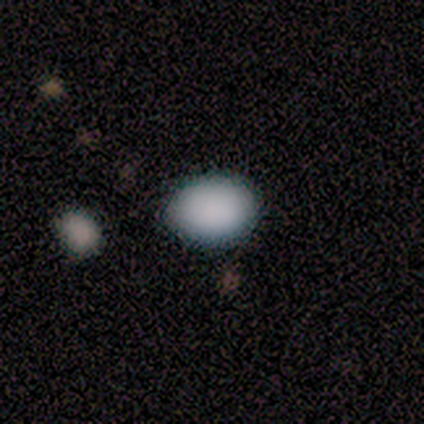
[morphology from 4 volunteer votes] Q: Smooth or featured?
A: smooth (50%); runner-up: featured or disk (25%)
Q: How rounded?
A: in between (100%)
Q: Merging?
A: none (67%); runner-up: minor disturbance (33%)